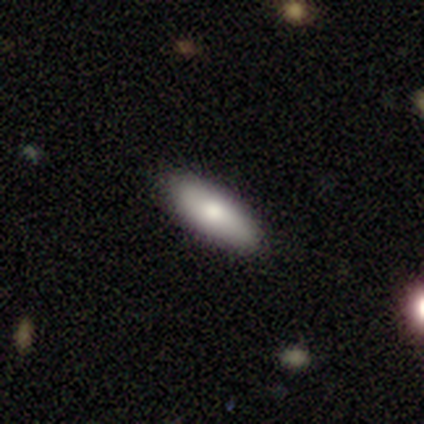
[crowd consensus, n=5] Smooth or featured?
  - smooth: 100% *
  - featured or disk: 0%
  - star or artifact: 0%
How rounded?
  - in between: 80% *
  - cigar-shaped: 20%
  - round: 0%
Merging?
  - none: 100% *
  - minor disturbance: 0%
  - major disturbance: 0%
  - merger: 0%